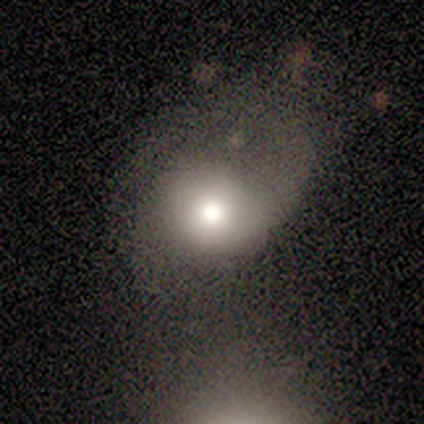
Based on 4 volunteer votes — Smooth or featured? 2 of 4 (50%, tied with star or artifact) said featured or disk. Edge-on disk? 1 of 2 (50%, tied with no) said yes. Edge-on bulge? 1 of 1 (100%) said none. Merging? 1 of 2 (50%, tied with major disturbance) said minor disturbance.